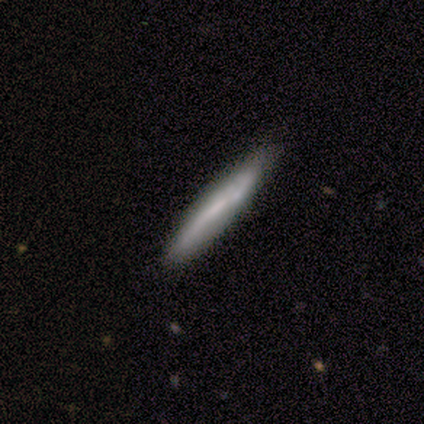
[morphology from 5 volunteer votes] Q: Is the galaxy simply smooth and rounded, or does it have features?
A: featured or disk — 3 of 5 (60%).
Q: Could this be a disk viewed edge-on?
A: yes — 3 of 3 (100%).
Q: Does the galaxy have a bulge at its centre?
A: none — 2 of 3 (67%).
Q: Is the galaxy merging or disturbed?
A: none — 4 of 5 (80%).